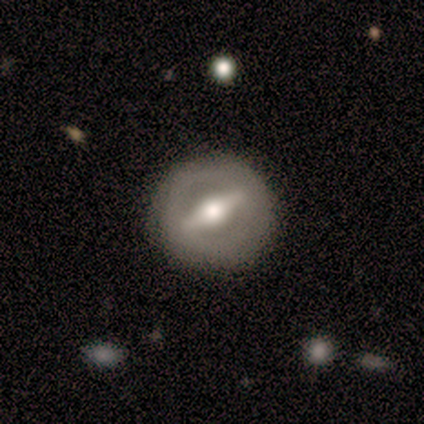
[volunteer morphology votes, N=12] smooth-or-featured: featured or disk: 100% | smooth: 0% | star or artifact: 0%
  disk-edge-on: no: 83% | yes: 17%
    bar: strong: 70% | weak: 20% | no: 10%
    has-spiral-arms: no: 90% | yes: 10%
    bulge-size: moderate: 60% | large: 30% | small: 10% | dominant: 0% | none: 0%
  merging: none: 92% | minor disturbance: 8% | major disturbance: 0% | merger: 0%